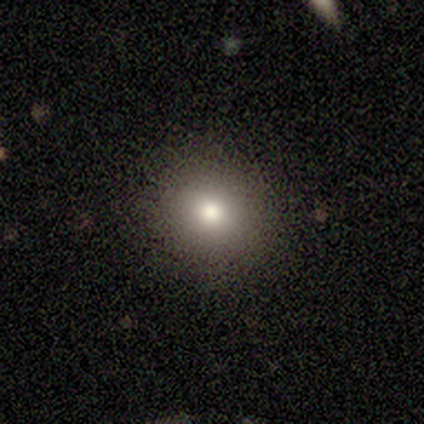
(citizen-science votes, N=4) smooth_or_featured: smooth (p=0.75) [alt: featured or disk p=0.25]
how_rounded: round (p=1.00)
merging: none (p=1.00)